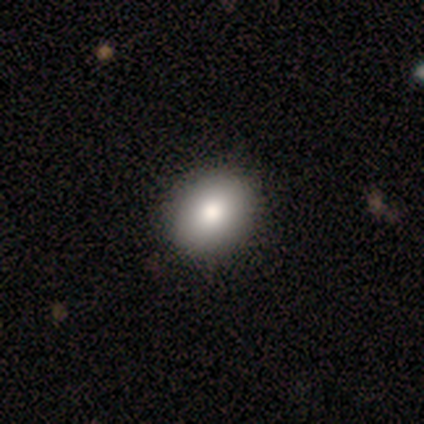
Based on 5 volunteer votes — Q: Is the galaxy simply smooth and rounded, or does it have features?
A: smooth — 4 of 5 (80%).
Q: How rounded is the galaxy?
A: round — 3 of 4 (75%).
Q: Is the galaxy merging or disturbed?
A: none — 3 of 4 (75%).